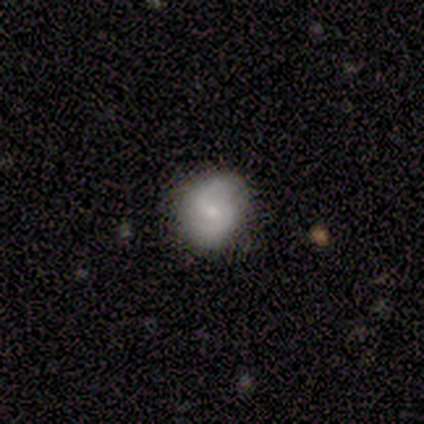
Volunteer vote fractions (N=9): This appears to be a smooth galaxy with no disk features (44%, tied with featured or disk) that is round (75%). Merging: none (100%).